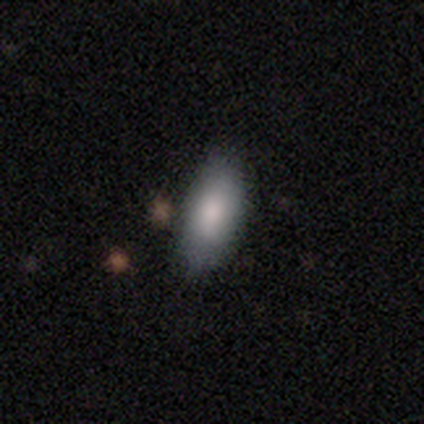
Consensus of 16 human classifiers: smooth-or-featured: smooth: 75% | featured or disk: 19% | star or artifact: 6%
  how-rounded: in between: 100% | round: 0% | cigar-shaped: 0%
  merging: none: 87% | major disturbance: 7% | merger: 7% | minor disturbance: 0%